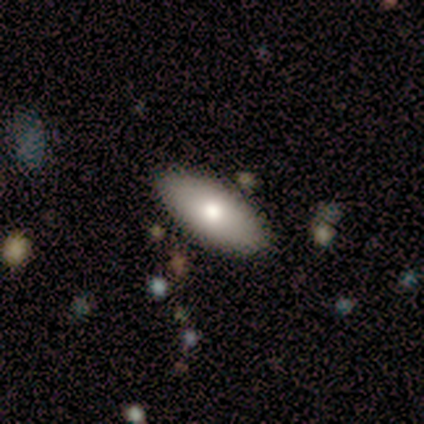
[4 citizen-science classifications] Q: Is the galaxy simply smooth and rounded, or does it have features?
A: smooth — 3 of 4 (75%).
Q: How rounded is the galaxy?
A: in between — 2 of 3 (67%).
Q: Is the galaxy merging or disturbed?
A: none — 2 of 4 (50%, tied with minor disturbance).